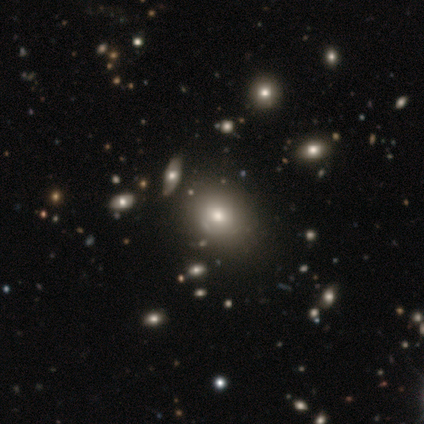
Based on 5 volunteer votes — Smooth or featured? smooth (60%)
How rounded? round (67%)
Merging? none (100%)